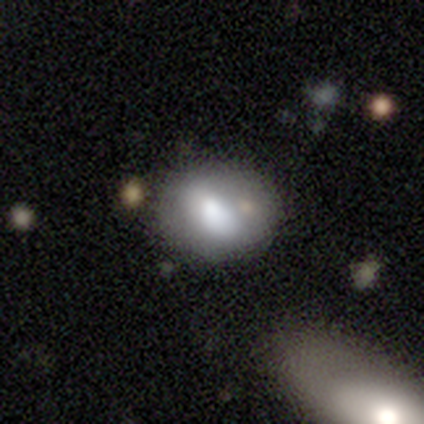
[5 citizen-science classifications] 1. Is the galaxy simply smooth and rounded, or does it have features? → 80% smooth, 20% featured or disk, 0% star or artifact.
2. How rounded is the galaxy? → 50% round (tied), 50% in between (tied), 0% cigar-shaped.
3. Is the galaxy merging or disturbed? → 60% merger, 20% none, 20% minor disturbance, 0% major disturbance.